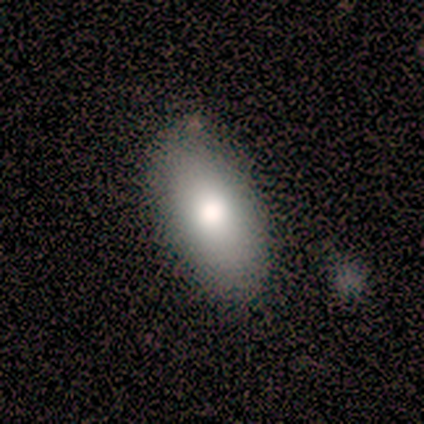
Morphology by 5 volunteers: This appears to be a smooth galaxy with no disk features (60%) that is in between round and cigar-shaped (100%). Merging: none (100%).